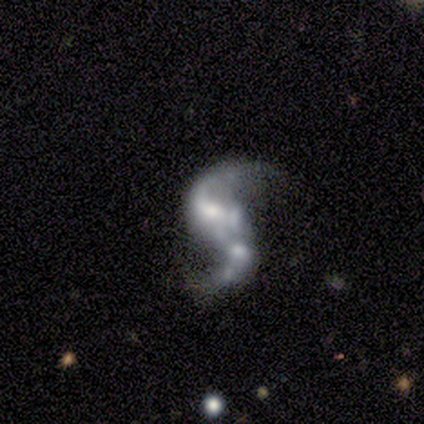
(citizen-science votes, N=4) smooth-or-featured: featured or disk: 100% | smooth: 0% | star or artifact: 0%
  disk-edge-on: no: 100% | yes: 0%
    bar: strong: 75% | no: 25% | weak: 0%
    has-spiral-arms: yes: 100% | no: 0%
      spiral-winding: loose: 100% | tight: 0% | medium: 0%
      spiral-arm-count: 2: 75% | 1: 25% | 3: 0% | 4: 0% | more than 4: 0% | can't tell: 0%
    bulge-size: moderate: 75% | none: 25% | dominant: 0% | large: 0% | small: 0%
  merging: merger: 50% | none: 25% | major disturbance: 25% | minor disturbance: 0%